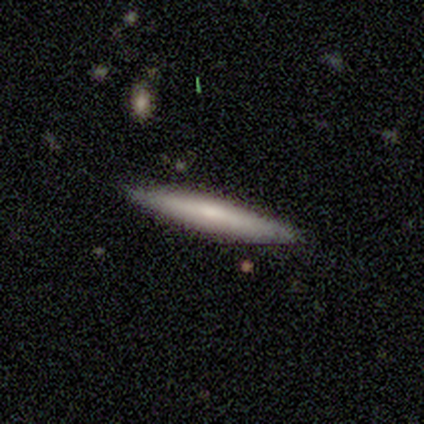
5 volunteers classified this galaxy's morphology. This appears to be a smooth galaxy with no disk features (80%) that is cigar-shaped (100%). Merging: none (80%).